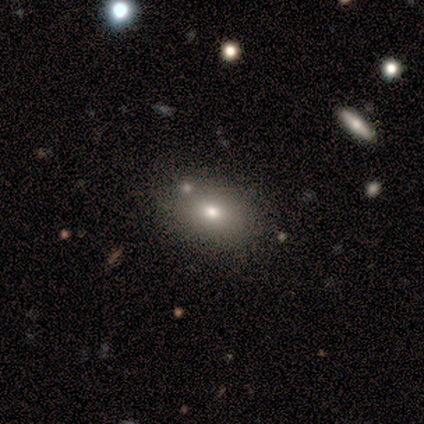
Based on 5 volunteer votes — Smooth or featured: smooth — 100%
How rounded: in between — 100%
Merging: none — 80% (merger — 20%)